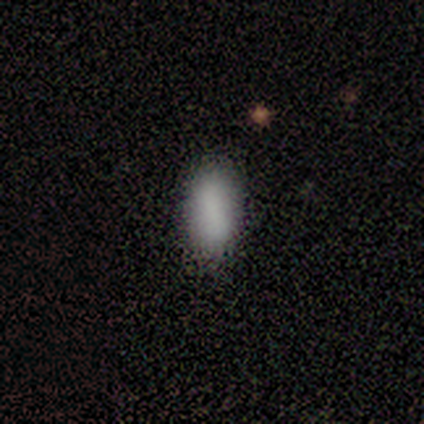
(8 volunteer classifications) smooth 88%, star or artifact 12%, featured or disk 0%. Down the decision tree: how rounded — in between (100%); merging — none (86%).